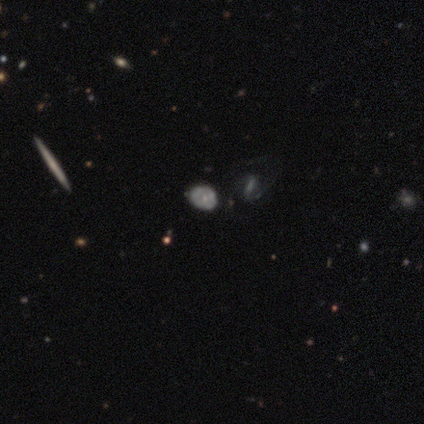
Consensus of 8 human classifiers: Overall: featured or disk (62%; star or artifact 25%). Edge-on disk: no (80%). Bar: no (75%). Spiral arms: yes (75%). Spiral arm count: can't tell (67%; 2 33%). Spiral winding: tight (67%; loose 33%). Bulge size: moderate (50%, tied with small). Merging: none (67%).